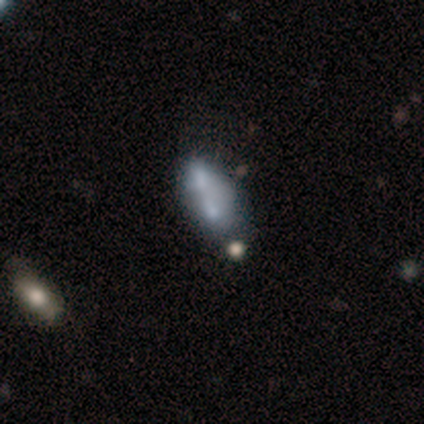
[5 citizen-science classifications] A smooth galaxy with no disk features (60%) that is in between round and cigar-shaped (100%).

Vote fractions:
- Smooth or featured? smooth: 60% / featured or disk: 40% / star or artifact: 0%
- How rounded? in between: 100% / round: 0% / cigar-shaped: 0%
- Merging? merger: 80% / none: 20% / minor disturbance: 0% / major disturbance: 0%